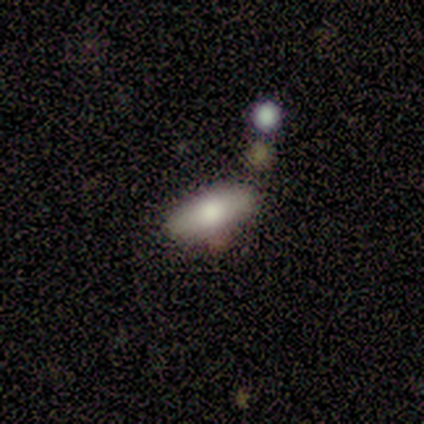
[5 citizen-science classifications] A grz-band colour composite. It shows a smooth galaxy with no disk features (80%) that is in between round and cigar-shaped (100%). Merging: none (75%).